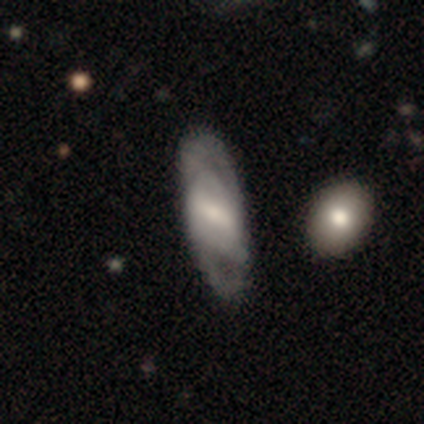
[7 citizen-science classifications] A featured or disk galaxy (57%) with a weak bar (50%), 2 (67%) tight (33%, tied with medium and loose) spiral arms (75%) and a small central bulge (50%).

Vote fractions:
- Smooth or featured? featured or disk: 57% / smooth: 29% / star or artifact: 14%
- Edge-on disk? no: 100% / yes: 0%
- Bar? weak: 50% / strong: 25% / no: 25%
- Spiral arms? yes: 75% / no: 25%
- Spiral winding? tight: 33% (tied) / medium: 33% (tied) / loose: 33% (tied)
- Spiral arm count? 2: 67% / can't tell: 33% / 1: 0% / 3: 0% / 4: 0% / more than 4: 0%
- Bulge size? small: 50% / large: 25% / moderate: 25% / dominant: 0% / none: 0%
- Merging? none: 83% / minor disturbance: 17% / major disturbance: 0% / merger: 0%